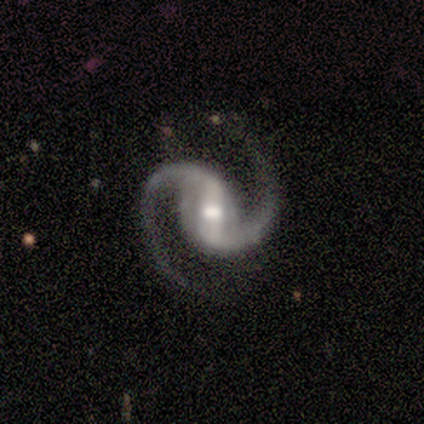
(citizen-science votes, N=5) This appears to be a featured or disk galaxy (100%) with a strong bar (40%, tied with weak), 2 (100%) medium (40%, tied with loose) spiral arms (100%) and a moderate central bulge (60%). Merging: none (80%).